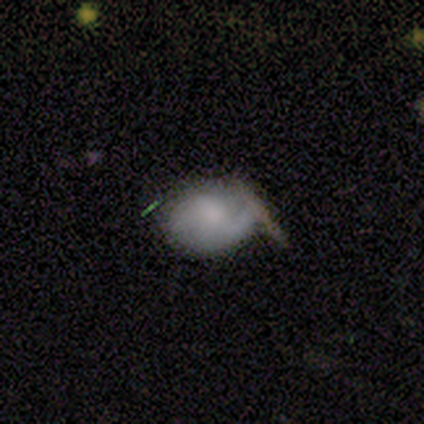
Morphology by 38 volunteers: This appears to be a smooth galaxy with no disk features (50%) that is in between round and cigar-shaped (74%). Merging: none (47%).